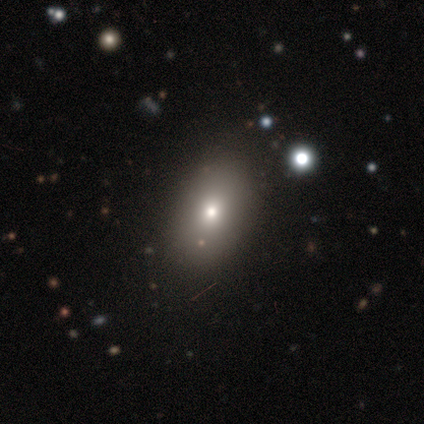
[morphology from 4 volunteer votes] smooth 75%, featured or disk 25%, star or artifact 0%. Down the decision tree: how rounded — in between (100%); merging — none (75%).